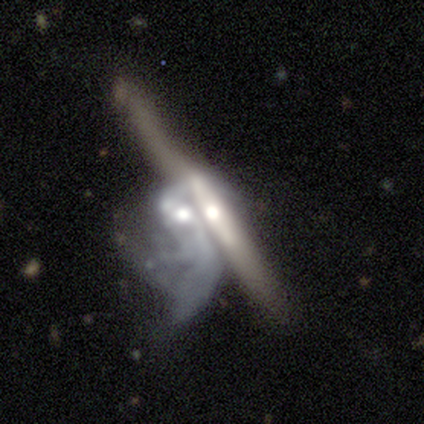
Smooth or featured? featured or disk (86%)
Edge-on disk? yes (58%)
Edge-on bulge? rounded (83%)
Merging? merger (80%)